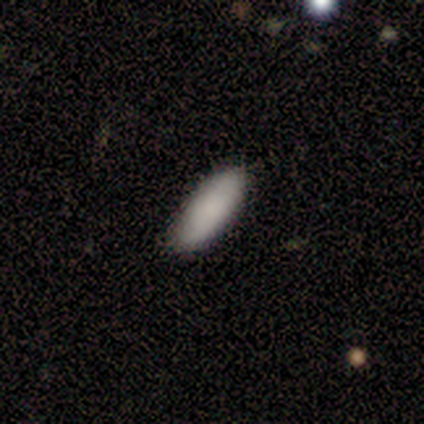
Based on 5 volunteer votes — This is clearly a smooth galaxy (100%). How rounded: likely in between (60%). Merging: clearly none (80%).